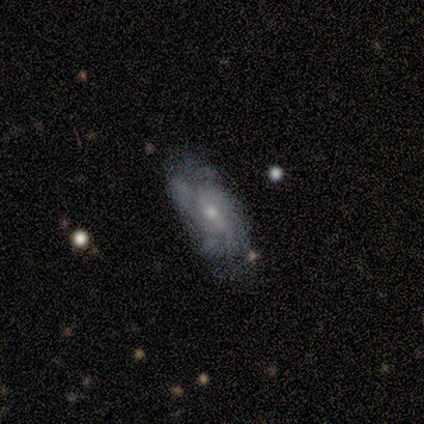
Morphology: type=featured or disk (75%); edge-on=no (100%); bar=weak (83%); spiral arms=yes (83%); winding=tight (60%); arm count=3 (40%); bulge=moderate (50%, tied with small); merging=none (50%).